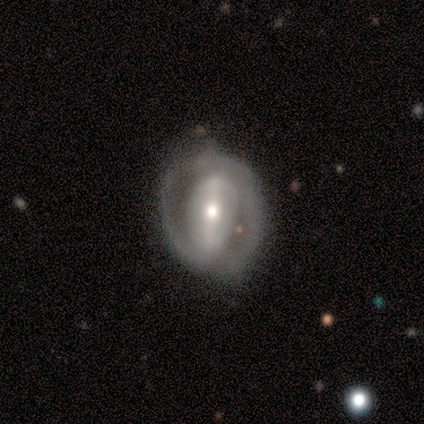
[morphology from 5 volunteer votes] smooth-or-featured: featured or disk: 100% | smooth: 0% | star or artifact: 0%
  disk-edge-on: no: 100% | yes: 0%
    bar: weak: 60% | strong: 20% | no: 20%
    has-spiral-arms: yes: 100% | no: 0%
      spiral-winding: medium: 60% | tight: 40% | loose: 0%
      spiral-arm-count: 2: 100% | 1: 0% | 3: 0% | 4: 0% | more than 4: 0% | can't tell: 0%
    bulge-size: small: 60% | moderate: 40% | dominant: 0% | large: 0% | none: 0%
  merging: none: 80% | minor disturbance: 20% | major disturbance: 0% | merger: 0%